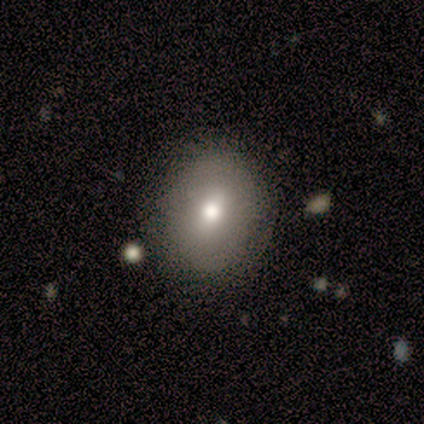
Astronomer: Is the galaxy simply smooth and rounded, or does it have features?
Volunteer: smooth — 100%.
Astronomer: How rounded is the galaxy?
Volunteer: round — 100%.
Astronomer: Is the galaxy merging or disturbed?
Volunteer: none — 100%.